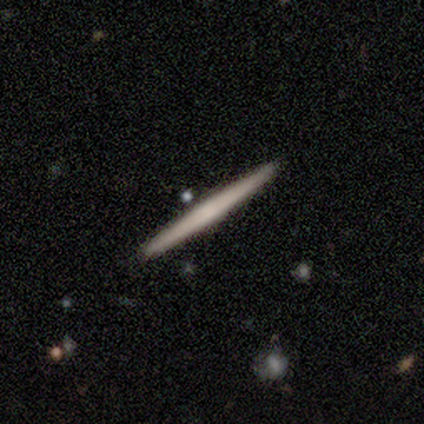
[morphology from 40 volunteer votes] A featured or disk galaxy (52%) viewed edge-on (95%) with no central bulge (70%). Merging: none (92%).